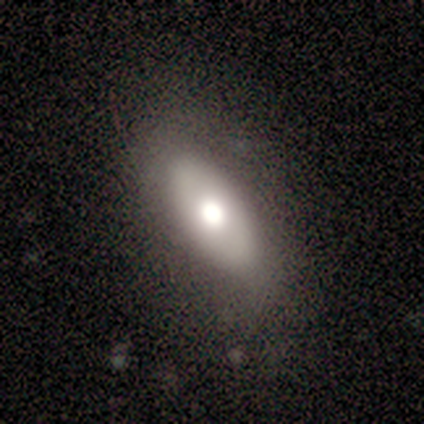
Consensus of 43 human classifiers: smooth-or-featured: smooth: 53% | featured or disk: 42% | star or artifact: 5%
  how-rounded: in between: 100% | round: 0% | cigar-shaped: 0%
  merging: none: 83% | minor disturbance: 15% | major disturbance: 2% | merger: 0%